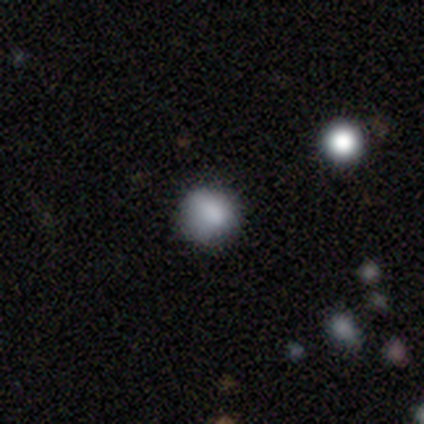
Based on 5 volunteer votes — A smooth galaxy with no disk features (60%) that is round (67%).

Vote fractions:
- Smooth or featured? smooth: 60% / star or artifact: 40% / featured or disk: 0%
- How rounded? round: 67% / in between: 33% / cigar-shaped: 0%
- Merging? none: 67% / minor disturbance: 33% / major disturbance: 0% / merger: 0%